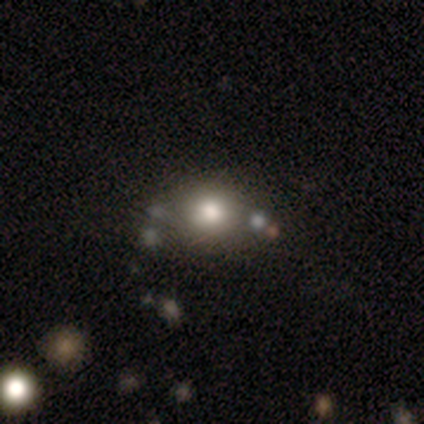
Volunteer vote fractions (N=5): Overall: smooth (60%; star or artifact 40%). How rounded: in between (67%; round 33%). Merging: none (100%).